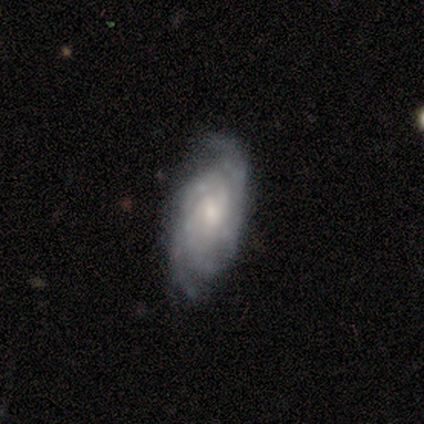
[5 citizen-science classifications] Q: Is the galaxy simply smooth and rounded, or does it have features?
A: featured or disk — 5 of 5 (100%).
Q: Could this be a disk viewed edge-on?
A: no — 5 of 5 (100%).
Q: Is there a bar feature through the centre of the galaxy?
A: no — 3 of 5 (60%).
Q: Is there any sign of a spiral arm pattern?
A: yes — 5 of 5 (100%).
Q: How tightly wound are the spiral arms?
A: tight — 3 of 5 (60%).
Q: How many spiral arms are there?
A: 2 — 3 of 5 (60%).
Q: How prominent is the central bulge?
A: small — 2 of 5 (40%).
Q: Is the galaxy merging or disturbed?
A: none — 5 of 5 (100%).